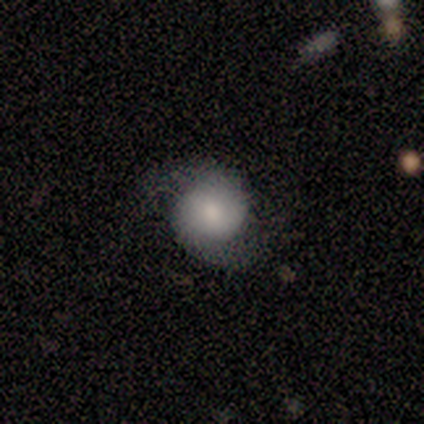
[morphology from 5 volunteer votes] Overall: featured or disk (60%; smooth 40%). Edge-on disk: no (100%). Bar: no (67%; weak 33%). Spiral arms: yes (100%). Spiral arm count: 2 (100%). Spiral winding: medium (67%; loose 33%). Bulge size: dominant (33%, tied with moderate and small). Merging: none (80%).